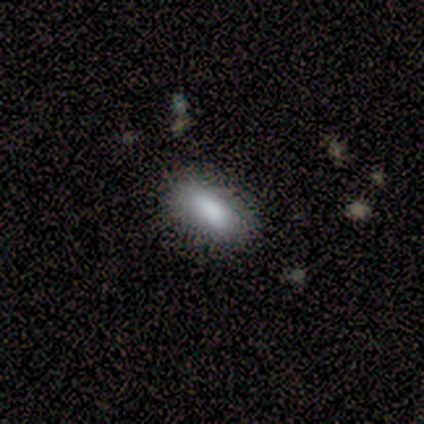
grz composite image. It shows a smooth galaxy with no disk features (92%) that is in between round and cigar-shaped (83%). Merging: none (92%).